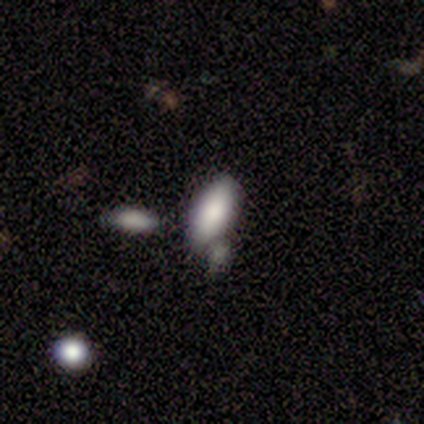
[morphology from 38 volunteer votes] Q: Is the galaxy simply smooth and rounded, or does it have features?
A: smooth — 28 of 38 (74%).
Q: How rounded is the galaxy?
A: in between — 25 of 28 (89%).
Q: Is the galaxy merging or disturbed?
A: none — 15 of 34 (44%).